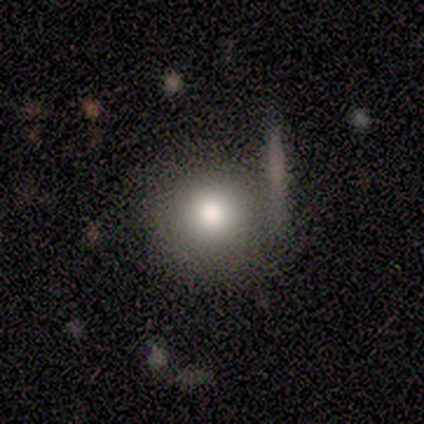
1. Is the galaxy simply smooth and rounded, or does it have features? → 75% smooth, 25% featured or disk, 0% star or artifact.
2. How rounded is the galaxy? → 100% round, 0% in between, 0% cigar-shaped.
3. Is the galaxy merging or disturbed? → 75% none, 25% merger, 0% minor disturbance, 0% major disturbance.